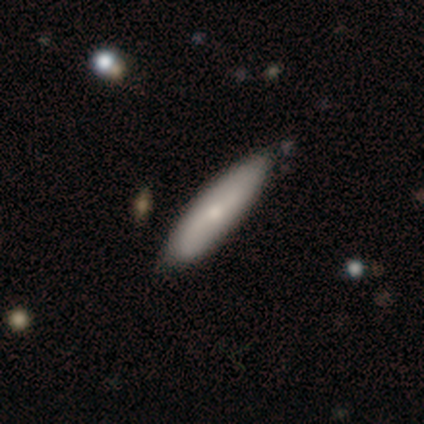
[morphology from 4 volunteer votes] This appears to be a smooth galaxy with no disk features (50%, tied with featured or disk) that is cigar-shaped (100%). Merging: none (100%).